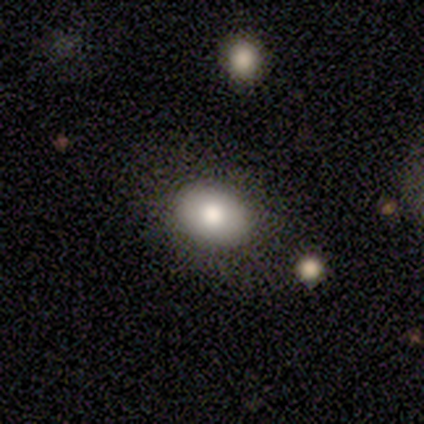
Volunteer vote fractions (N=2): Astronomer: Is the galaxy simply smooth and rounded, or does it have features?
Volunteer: smooth — 50%, tied with featured or disk at 50%.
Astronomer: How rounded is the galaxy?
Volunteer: in between — 100%.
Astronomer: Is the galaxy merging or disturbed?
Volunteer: none — 100%.